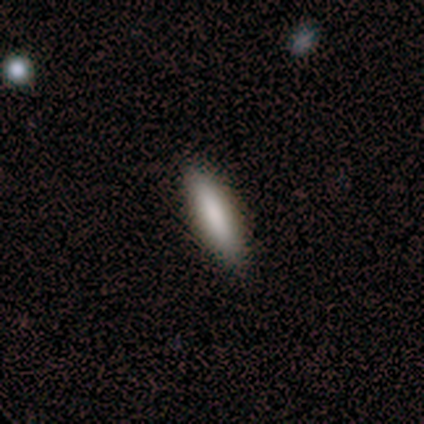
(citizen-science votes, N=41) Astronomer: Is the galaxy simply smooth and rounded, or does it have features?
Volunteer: smooth — 80%.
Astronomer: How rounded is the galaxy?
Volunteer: cigar-shaped — 73%.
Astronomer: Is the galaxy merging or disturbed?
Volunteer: none — 90%.